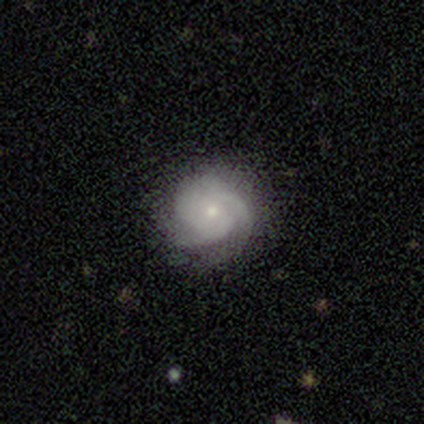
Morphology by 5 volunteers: This appears to be a featured or disk galaxy (100%) with no bar (80%), tight (60%) spiral arms (100%) and a moderate central bulge (60%). Merging: none (100%).